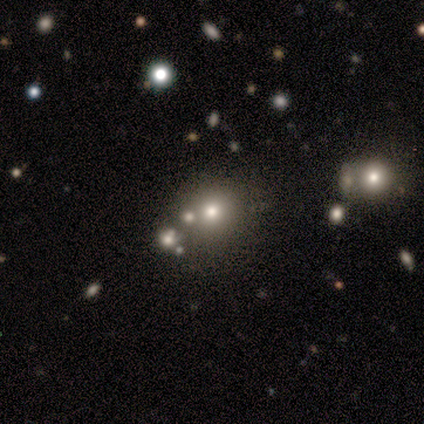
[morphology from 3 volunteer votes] This appears to be a smooth galaxy with no disk features (100%) that is round (67%). Merging: none (67%).